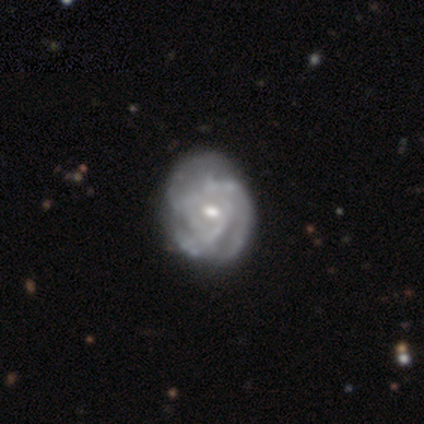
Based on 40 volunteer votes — smooth-or-featured: featured or disk: 88% | star or artifact: 8% | smooth: 5%
  disk-edge-on: no: 100% | yes: 0%
    bar: no: 51% | weak: 46% | strong: 3%
    has-spiral-arms: yes: 97% | no: 3%
      spiral-winding: tight: 53% | medium: 32% | loose: 15%
      spiral-arm-count: can't tell: 47% | 3: 29% | 2: 12% | 4: 9% | 1: 3% | more than 4: 0%
    bulge-size: moderate: 63% | small: 34% | large: 3% | dominant: 0% | none: 0%
  merging: none: 41% | minor disturbance: 27% | major disturbance: 3% | merger: 0%